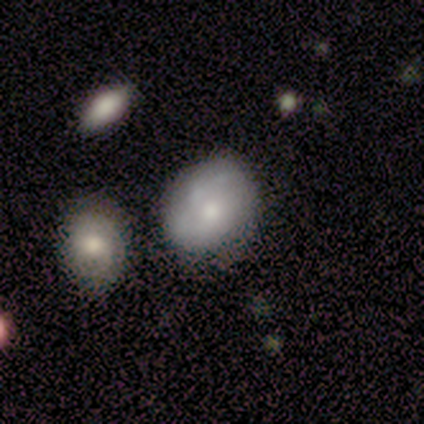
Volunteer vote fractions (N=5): smooth-or-featured: smooth: 40% (tied) | featured or disk: 40% (tied) | star or artifact: 20%
  how-rounded: round: 50% (tied) | in between: 50% (tied) | cigar-shaped: 0%
  merging: none: 50% (tied) | minor disturbance: 50% (tied) | major disturbance: 0% | merger: 0%